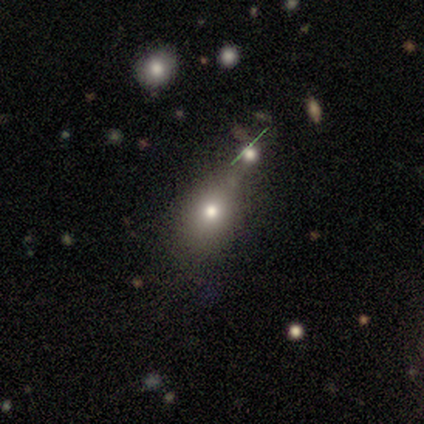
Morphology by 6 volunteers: Volunteers were most divided on "merging": merger: 50%, none: 33%, minor disturbance: 17%, major disturbance: 0%. More confident: smooth or featured — smooth (83%); how rounded — round (60%).